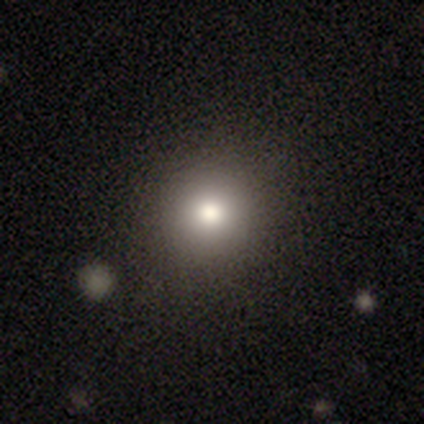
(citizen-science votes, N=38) Volunteers were most divided on "smooth or featured": smooth: 84%, star or artifact: 13%, featured or disk: 3%. More confident: merging — none (94%); how rounded — round (88%).